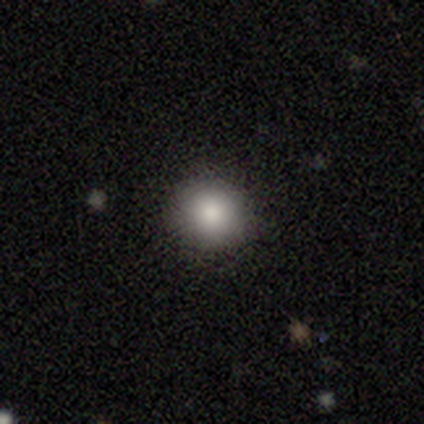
This is clearly a smooth galaxy (97%). How rounded: clearly round (89%). Merging: clearly none (87%).